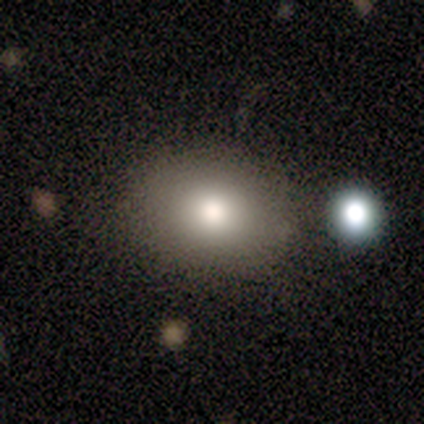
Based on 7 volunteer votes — Morphology: type=smooth (71%); roundness=in between (60%); merging=none (86%).